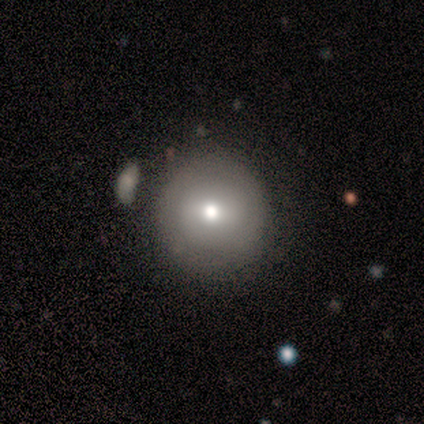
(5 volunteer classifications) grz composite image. It shows a featured or disk galaxy (60%) with no bar (67%), no spiral arms (100%) and a moderate central bulge (67%). Merging: none (80%).